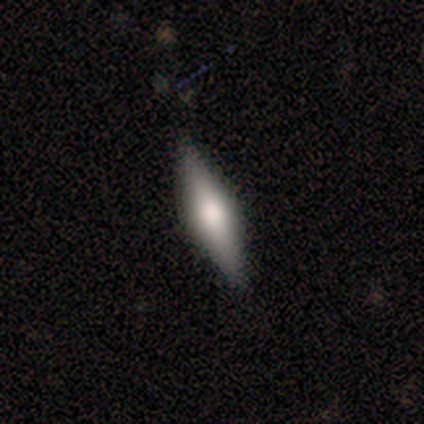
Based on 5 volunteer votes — smooth_or_featured: smooth (p=0.60) [alt: featured or disk p=0.40]
how_rounded: cigar-shaped (p=0.67) [alt: in between p=0.33]
merging: none (p=1.00)